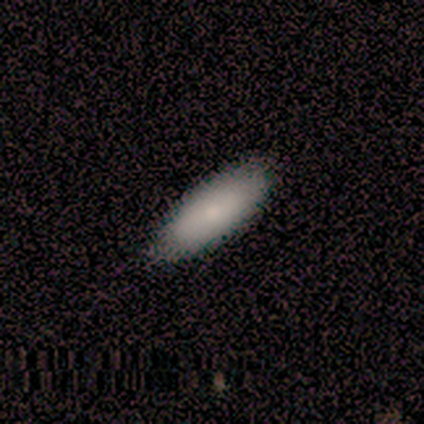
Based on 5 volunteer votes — Morphology: type=smooth (100%); roundness=in between (60%); merging=none (100%).